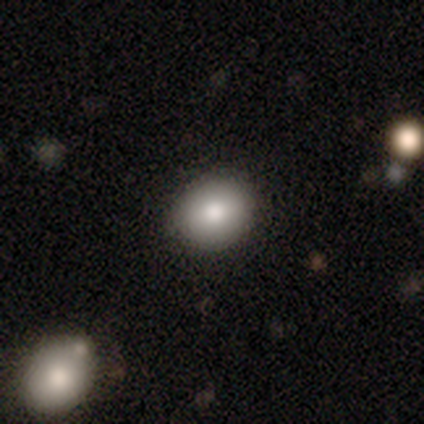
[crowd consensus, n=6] Q: Smooth or featured?
A: smooth (83%); runner-up: featured or disk (17%)
Q: How rounded?
A: round (100%)
Q: Merging?
A: none (100%)